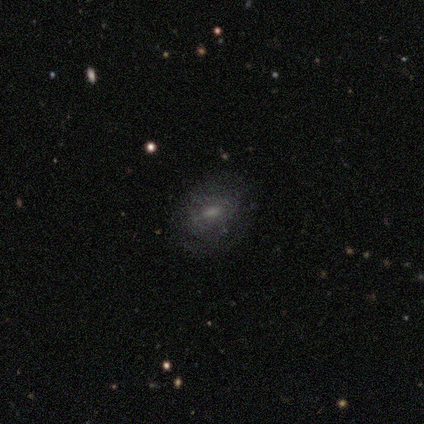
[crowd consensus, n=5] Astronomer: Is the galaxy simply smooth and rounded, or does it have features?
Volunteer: smooth — 60% (runner-up: featured or disk, 40%).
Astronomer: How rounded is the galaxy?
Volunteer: round — 33%, tied with in between and cigar-shaped at 33%.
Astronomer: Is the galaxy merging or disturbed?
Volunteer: none — 80%.